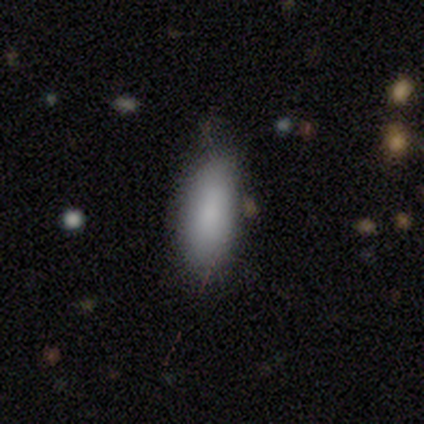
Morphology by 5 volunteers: smooth-or-featured: smooth: 100% | featured or disk: 0% | star or artifact: 0%
  how-rounded: in between: 100% | round: 0% | cigar-shaped: 0%
  merging: none: 60% | minor disturbance: 40% | major disturbance: 0% | merger: 0%